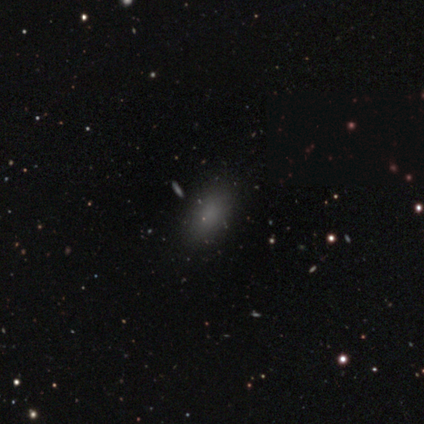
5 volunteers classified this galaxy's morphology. A smooth galaxy with no disk features (80%) that is in between round and cigar-shaped (100%).

Vote fractions:
- Smooth or featured? smooth: 80% / star or artifact: 20% / featured or disk: 0%
- How rounded? in between: 100% / round: 0% / cigar-shaped: 0%
- Merging? none: 100% / minor disturbance: 0% / major disturbance: 0% / merger: 0%